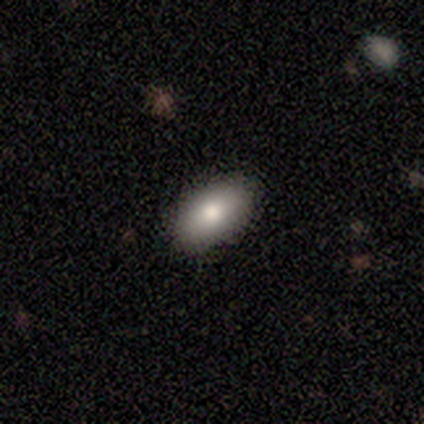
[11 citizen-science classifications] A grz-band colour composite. It shows a smooth galaxy with no disk features (91%) that is in between round and cigar-shaped (100%). Merging: none (100%).